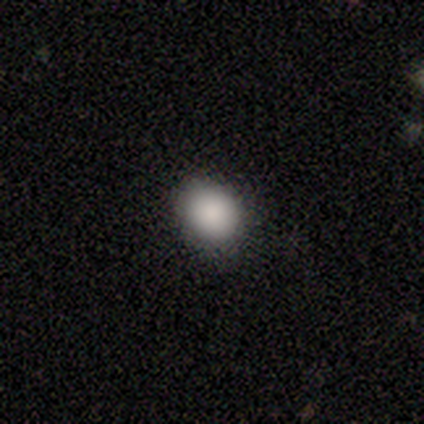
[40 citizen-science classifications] smooth_or_featured: smooth (p=0.93) [alt: star or artifact p=0.07]
how_rounded: round (p=0.76) [alt: in between p=0.24]
merging: none (p=0.81) [alt: minor disturbance p=0.11]